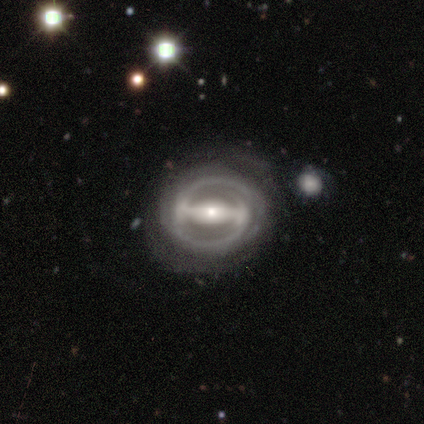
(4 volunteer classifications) smooth-or-featured: featured or disk: 100% | smooth: 0% | star or artifact: 0%
  disk-edge-on: no: 100% | yes: 0%
    bar: strong: 100% | weak: 0% | no: 0%
    has-spiral-arms: yes: 75% | no: 25%
      spiral-winding: tight: 67% | loose: 33% | medium: 0%
      spiral-arm-count: 1: 33% (tied) | 2: 33% (tied) | can't tell: 33% (tied) | 3: 0% | 4: 0% | more than 4: 0%
    bulge-size: moderate: 50% (tied) | small: 50% (tied) | dominant: 0% | large: 0% | none: 0%
  merging: none: 50% (tied) | minor disturbance: 50% (tied) | major disturbance: 0% | merger: 0%